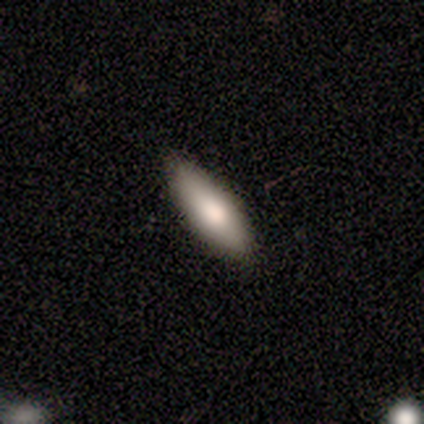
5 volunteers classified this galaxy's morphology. smooth 60%, featured or disk 40%, star or artifact 0%. Down the decision tree: how rounded — in between (100%); merging — none (100%).